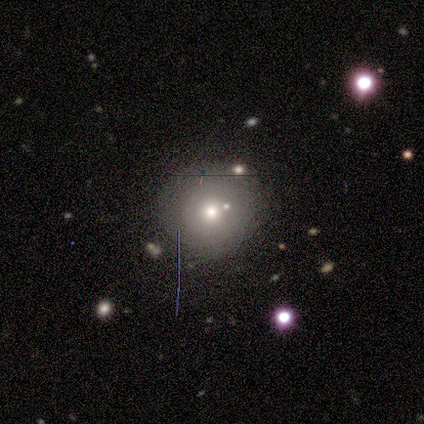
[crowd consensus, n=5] smooth_or_featured: smooth (p=0.80) [alt: featured or disk p=0.20]
how_rounded: round (p=0.75) [alt: in between p=0.25]
merging: none (p=0.40) [tied with: major disturbance p=0.40]